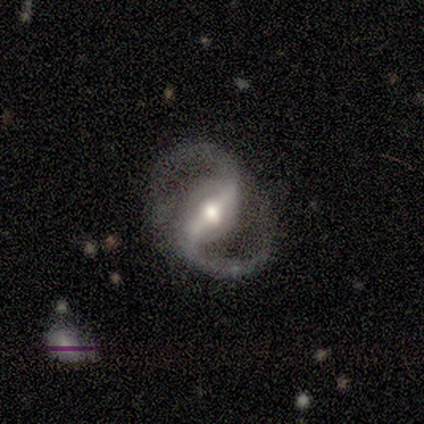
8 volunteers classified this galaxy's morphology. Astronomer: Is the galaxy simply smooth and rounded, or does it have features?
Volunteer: featured or disk — 100%.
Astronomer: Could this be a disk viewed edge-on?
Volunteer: no — 100%.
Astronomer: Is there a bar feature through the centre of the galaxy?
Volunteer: strong — 75%.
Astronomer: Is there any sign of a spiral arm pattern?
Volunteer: yes — 100%.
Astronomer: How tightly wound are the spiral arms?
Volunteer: medium — 62%.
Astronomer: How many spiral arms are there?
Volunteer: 2 — 88%.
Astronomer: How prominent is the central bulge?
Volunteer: moderate — 75%.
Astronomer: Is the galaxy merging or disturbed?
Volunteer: none — 88%.